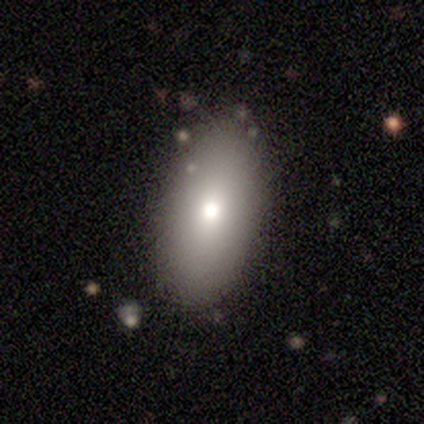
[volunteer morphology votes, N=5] This appears to be a smooth galaxy with no disk features (60%) that is in between round and cigar-shaped (67%). Merging: minor disturbance (60%).